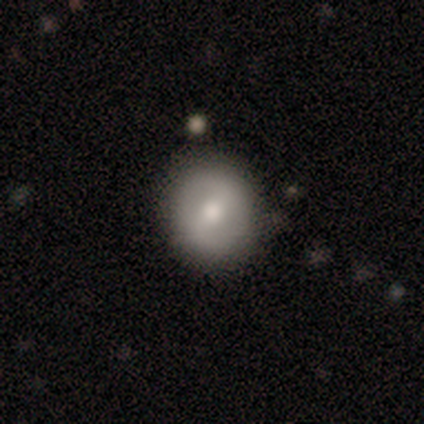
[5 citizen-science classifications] This is likely a smooth galaxy (60%). How rounded: clearly round (100%). Merging: likely none (60%).